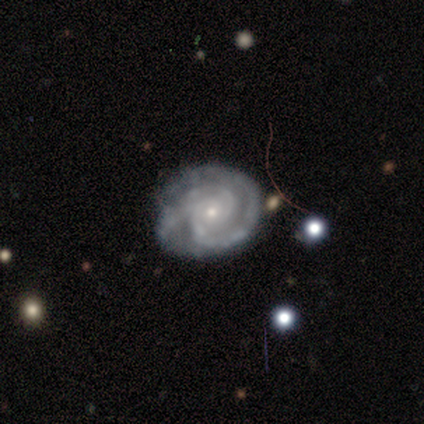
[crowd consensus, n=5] Smooth or featured? featured or disk (100%)
Edge-on disk? no (100%)
Bar? no (100%)
Spiral arms? yes (100%)
Spiral winding? tight (80%)
Spiral arm count? 2 (80%)
Bulge size? small (100%)
Merging? none (80%)